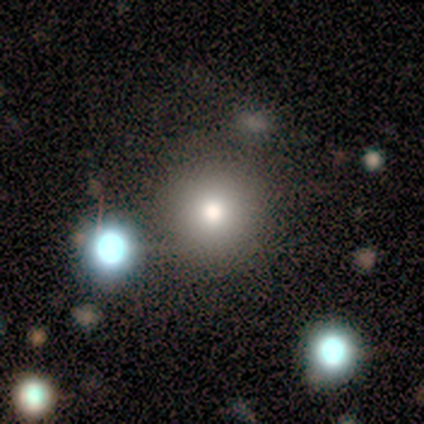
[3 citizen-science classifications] Morphology: type=smooth (100%); roundness=round (100%); merging=none (67%).